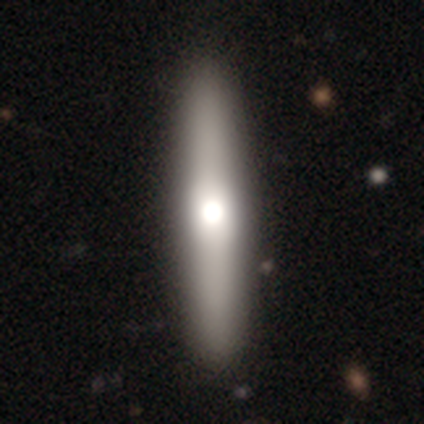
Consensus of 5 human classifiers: Smooth or featured? 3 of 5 (60%) said smooth. How rounded? 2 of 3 (67%) said cigar-shaped. Merging? 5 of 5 (100%) said none.